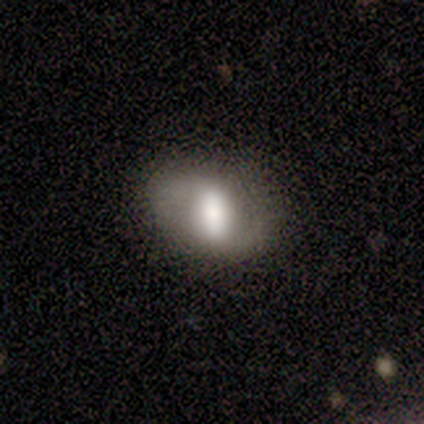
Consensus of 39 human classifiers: smooth_or_featured: smooth (p=0.46) [alt: featured or disk p=0.38]
how_rounded: in between (p=0.72) [alt: round p=0.22]
merging: none (p=0.79) [alt: minor disturbance p=0.21]